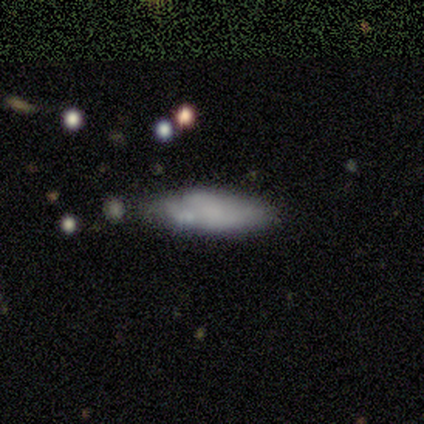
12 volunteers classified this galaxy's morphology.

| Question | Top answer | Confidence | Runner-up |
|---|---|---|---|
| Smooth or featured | smooth | 75% | star or artifact (17%) |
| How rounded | in between | 78% | cigar-shaped (22%) |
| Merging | minor disturbance | 40% | none (30%) |